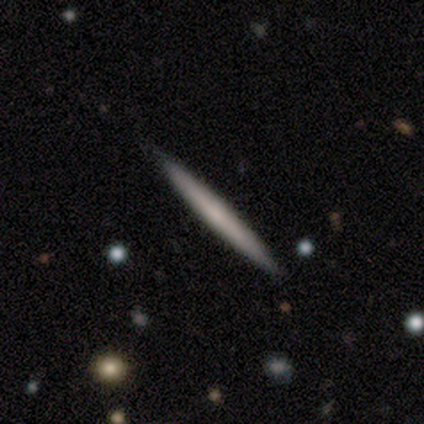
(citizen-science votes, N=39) Smooth or featured? 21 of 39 (54%) said smooth. How rounded? 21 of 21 (100%) said cigar-shaped. Merging? 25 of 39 (64%) said none.